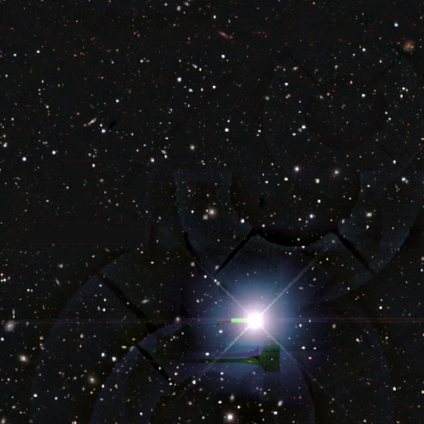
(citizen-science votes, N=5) A star or artifact, not a galaxy (100%).